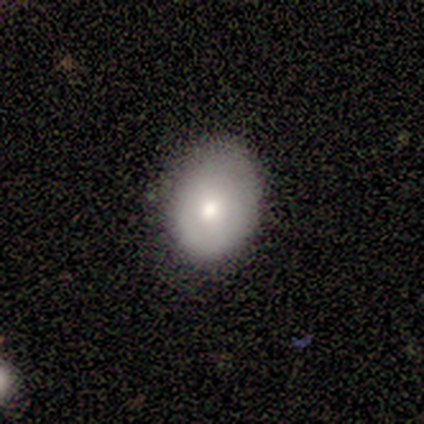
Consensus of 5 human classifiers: This is clearly a smooth galaxy (100%). How rounded: clearly in between (80%). Merging: clearly none (100%).